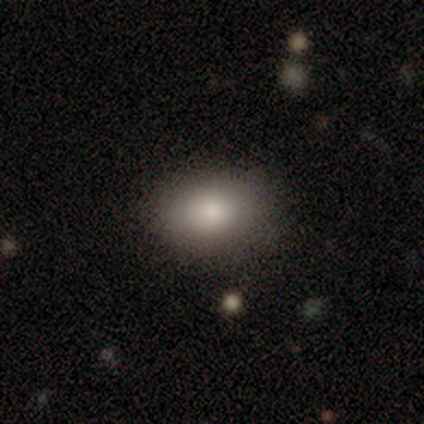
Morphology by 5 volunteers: Volunteers were most divided on "smooth or featured" (2-way tie): smooth: 40%, star or artifact: 40%, featured or disk: 20%. More confident: how rounded — in between (100%); merging — none (67%).